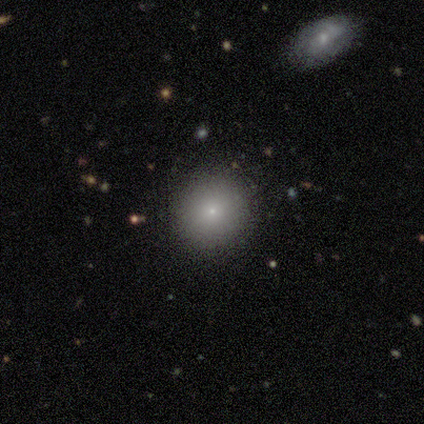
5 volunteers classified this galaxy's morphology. This appears to be a smooth galaxy with no disk features (60%) that is round (100%). Merging: none (100%).